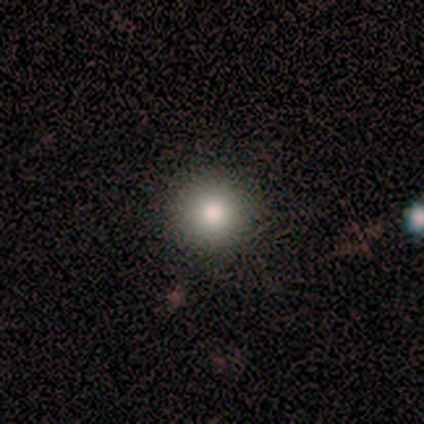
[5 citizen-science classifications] Overall: featured or disk (40%, tied with star or artifact). Edge-on disk: no (100%). Bar: no (100%). Spiral arms: no (100%). Bulge size: large (50%, tied with moderate). Merging: none (100%).